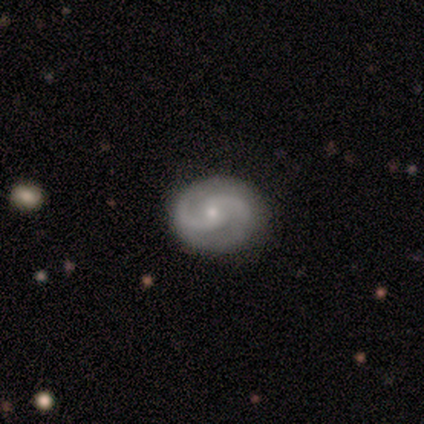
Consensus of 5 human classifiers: Smooth or featured: featured or disk — 80% (smooth — 20%)
Edge-on disk: no — 100%
Bar: weak — 50% (tied with no — 50%)
Spiral arms: yes — 100%
Spiral winding: tight — 50% (tied with medium — 50%)
Spiral arm count: 2 — 100%
Bulge size: small — 75% (moderate — 25%)
Merging: none — 80% (minor disturbance — 20%)